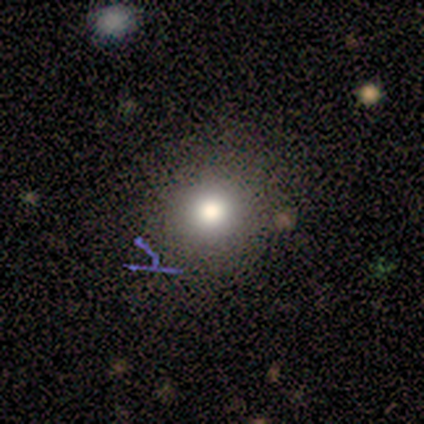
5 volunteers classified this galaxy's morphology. A smooth galaxy with no disk features (60%) that is round (67%).

Vote fractions:
- Smooth or featured? smooth: 60% / star or artifact: 40% / featured or disk: 0%
- How rounded? round: 67% / in between: 33% / cigar-shaped: 0%
- Merging? none: 67% / minor disturbance: 33% / major disturbance: 0% / merger: 0%